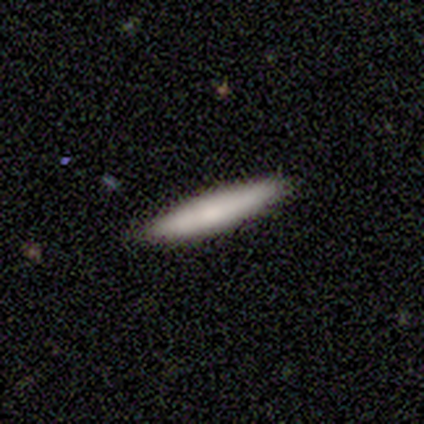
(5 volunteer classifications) This is clearly a smooth galaxy (80%). How rounded: clearly cigar-shaped (100%). Merging: clearly none (100%).